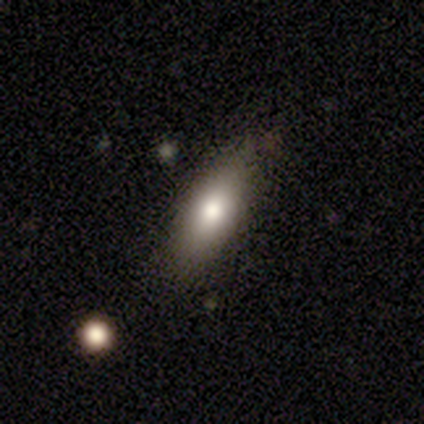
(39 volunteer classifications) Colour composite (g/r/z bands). It shows a smooth galaxy with no disk features (69%) that is in between round and cigar-shaped (63%). Merging: none (66%).